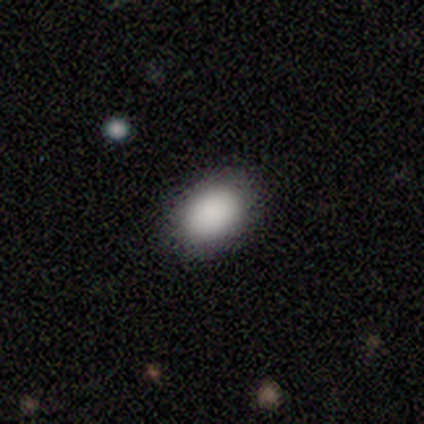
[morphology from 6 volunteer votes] This is clearly a smooth galaxy (83%). How rounded: clearly in between (80%). Merging: clearly none (100%).